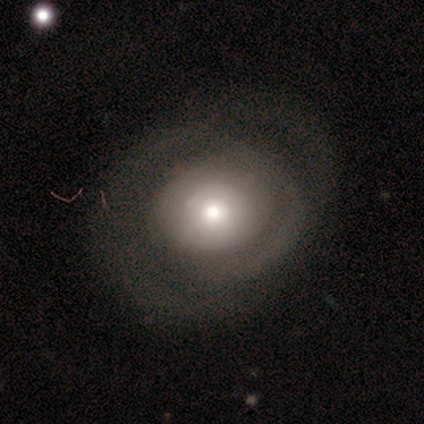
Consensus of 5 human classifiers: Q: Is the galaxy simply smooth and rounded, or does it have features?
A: featured or disk — 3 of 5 (60%).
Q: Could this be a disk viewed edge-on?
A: no — 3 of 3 (100%).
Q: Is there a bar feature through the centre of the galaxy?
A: no — 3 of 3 (100%).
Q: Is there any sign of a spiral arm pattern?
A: yes — 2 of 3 (67%).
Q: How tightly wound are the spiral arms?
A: tight — 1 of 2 (50%, tied with medium).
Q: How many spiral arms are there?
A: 2 — 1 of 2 (50%, tied with can't tell).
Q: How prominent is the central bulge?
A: large — 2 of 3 (67%).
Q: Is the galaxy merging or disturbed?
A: minor disturbance — 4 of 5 (80%).